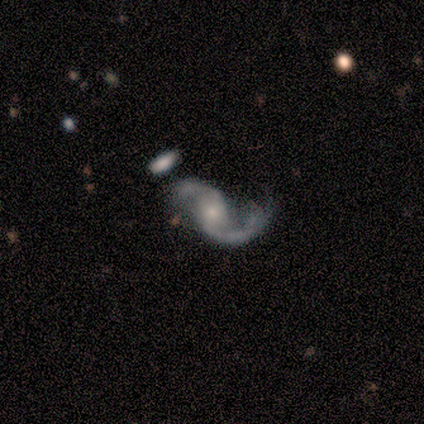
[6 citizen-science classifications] A featured or disk galaxy (100%) with a weak bar (67%), 2 (83%) loose (67%) spiral arms (100%) and a moderate central bulge (50%, tied with small). Merging: major disturbance (67%).